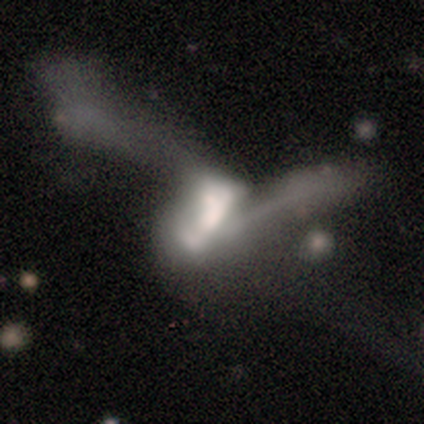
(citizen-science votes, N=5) Overall: smooth (60%; featured or disk 20%). How rounded: in between (100%). Merging: merger (100%).